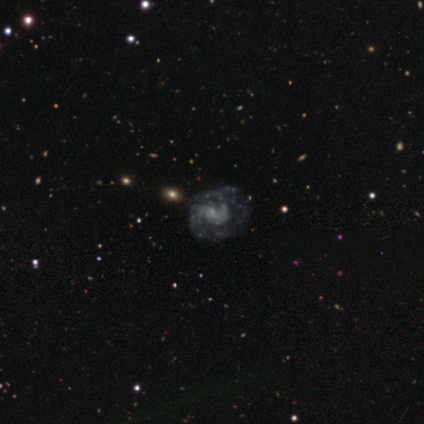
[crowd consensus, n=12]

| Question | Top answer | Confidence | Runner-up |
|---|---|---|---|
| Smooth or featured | featured or disk | 50% | star or artifact (42%) |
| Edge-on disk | no | 100% | — |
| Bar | no | 83% | weak (17%) |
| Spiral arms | yes | 100% | — |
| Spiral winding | medium | 50% | tight (33%) |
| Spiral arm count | can't tell | 50% | 2 (33%) |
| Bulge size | moderate | 33% | tied: small (33%), none (33%) |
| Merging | none | 43% | tied: minor disturbance (43%) |